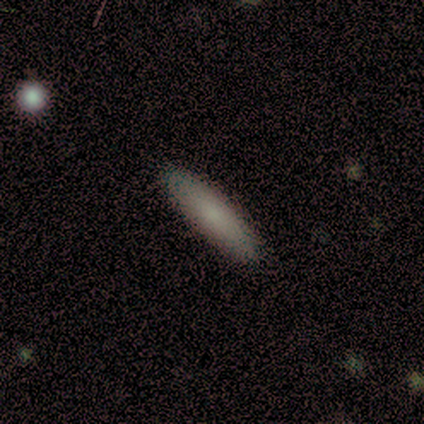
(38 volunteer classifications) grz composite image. It shows a smooth galaxy with no disk features (84%) that is cigar-shaped (75%). Merging: none (97%).